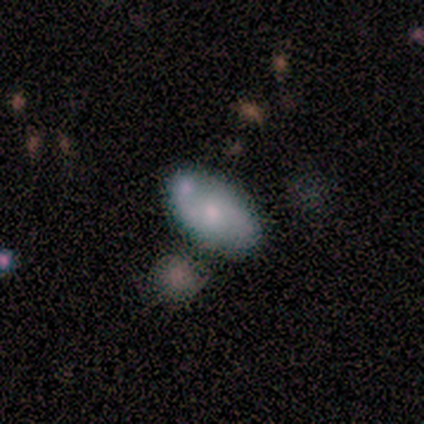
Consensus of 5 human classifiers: Morphology: type=featured or disk (60%); edge-on=no (100%); bar=no (67%); spiral arms=yes (100%); winding=medium (67%); arm count=2 (100%); bulge=moderate (67%); merging=none (60%).